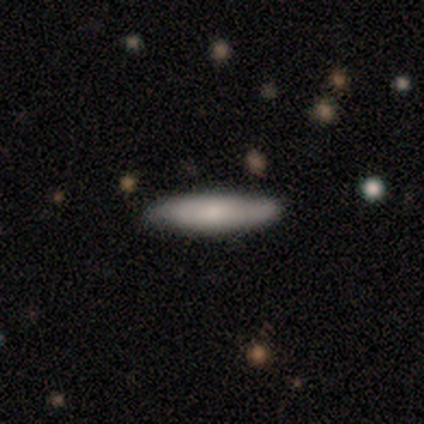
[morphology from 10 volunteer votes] type=smooth (50%, tied with featured or disk); roundness=cigar-shaped (80%); merging=none (80%).